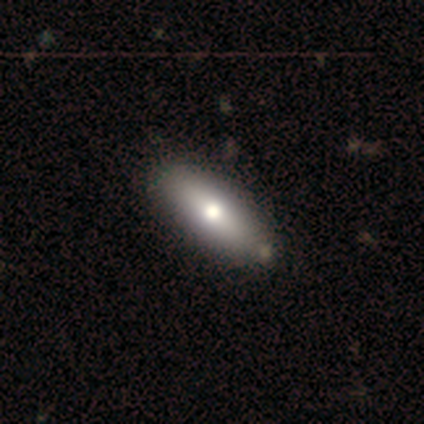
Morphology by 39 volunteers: type=smooth (77%); roundness=in between (63%); merging=none (74%).